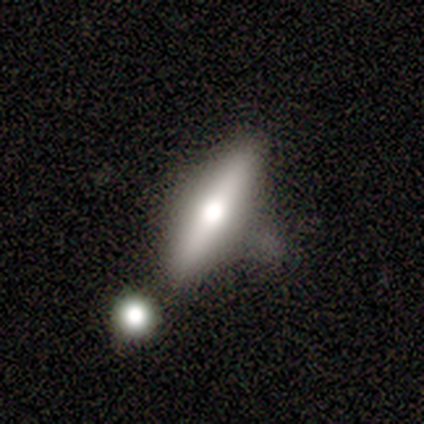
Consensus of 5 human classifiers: Morphology: type=featured or disk (60%); edge-on=yes (100%); edge-on bulge=rounded (100%); merging=none (50%, tied with minor disturbance).